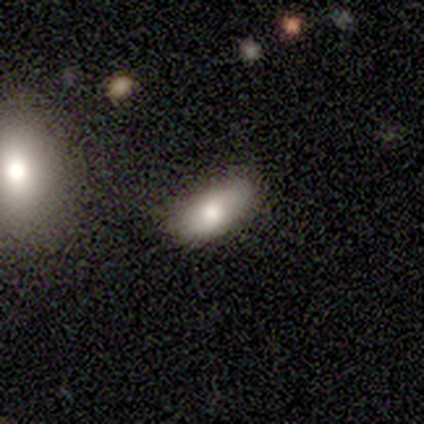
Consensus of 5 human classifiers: Morphology: type=smooth (80%); roundness=in between (75%); merging=none (100%).